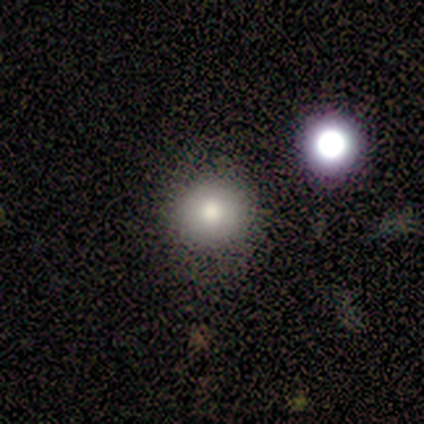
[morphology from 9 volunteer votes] smooth_or_featured: smooth (p=0.67) [alt: star or artifact p=0.22]
how_rounded: round (p=1.00)
merging: none (p=0.86) [alt: major disturbance p=0.14]